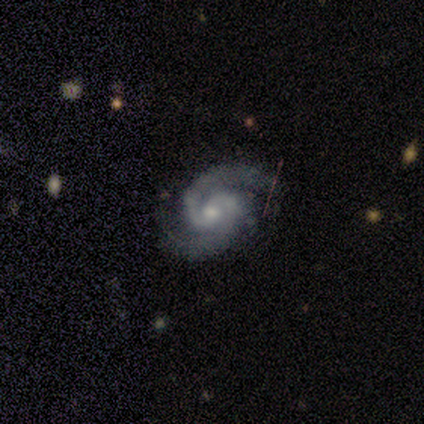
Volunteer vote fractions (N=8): Smooth or featured? 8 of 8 (100%) said featured or disk. Edge-on disk? 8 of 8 (100%) said no. Bar? 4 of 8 (50%) said weak. Spiral arms? 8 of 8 (100%) said yes. Spiral winding? 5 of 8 (62%) said tight. Spiral arm count? 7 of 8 (88%) said 2. Bulge size? 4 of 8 (50%) said small. Merging? 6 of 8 (75%) said none.